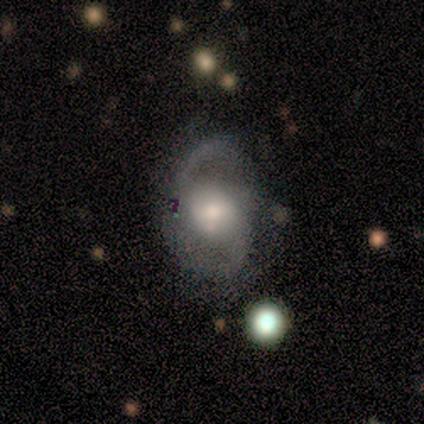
A featured or disk galaxy (90%) with no bar (67%), 2 (100%) medium (62%) spiral arms (89%) and a large central bulge (33%, tied with moderate and small). Merging: none (60%).